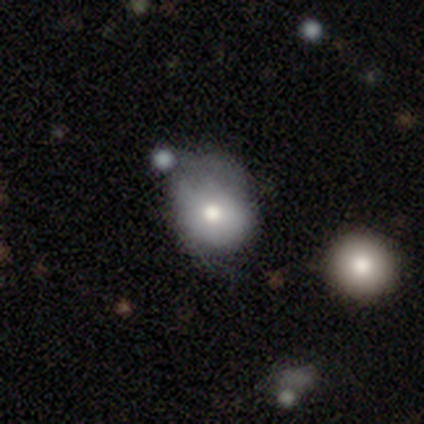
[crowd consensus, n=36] Morphology: type=smooth (69%); roundness=round (56%); merging=minor disturbance (44%).